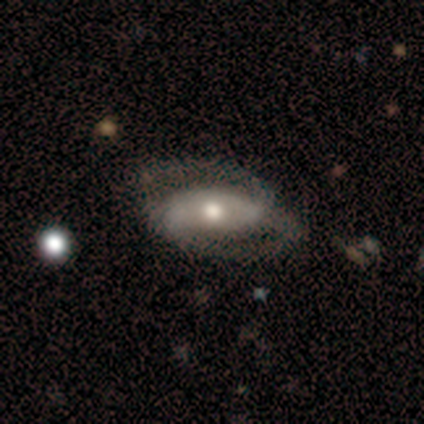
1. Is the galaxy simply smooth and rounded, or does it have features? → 77% featured or disk, 23% smooth, 0% star or artifact.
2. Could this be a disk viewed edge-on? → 90% no, 10% yes.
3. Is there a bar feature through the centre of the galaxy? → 89% no, 11% weak, 0% strong.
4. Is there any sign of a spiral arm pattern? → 56% yes, 44% no.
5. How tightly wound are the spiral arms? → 40% tight (tied), 40% loose (tied), 20% medium.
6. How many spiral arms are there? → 60% can't tell, 40% 2, 0% 1, 0% 3, 0% 4, 0% more than 4.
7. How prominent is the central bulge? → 67% moderate, 22% large, 11% small, 0% dominant, 0% none.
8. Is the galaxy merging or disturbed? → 54% major disturbance, 31% minor disturbance, 15% none, 0% merger.